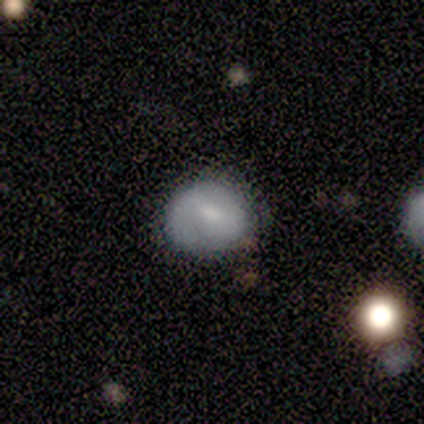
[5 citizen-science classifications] A featured or disk galaxy (80%) with a weak bar (75%), no spiral arms (75%) and a small central bulge (75%).

Vote fractions:
- Smooth or featured? featured or disk: 80% / smooth: 20% / star or artifact: 0%
- Edge-on disk? no: 100% / yes: 0%
- Bar? weak: 75% / no: 25% / strong: 0%
- Spiral arms? no: 75% / yes: 25%
- Bulge size? small: 75% / large: 25% / dominant: 0% / moderate: 0% / none: 0%
- Merging? none: 80% / minor disturbance: 20% / major disturbance: 0% / merger: 0%